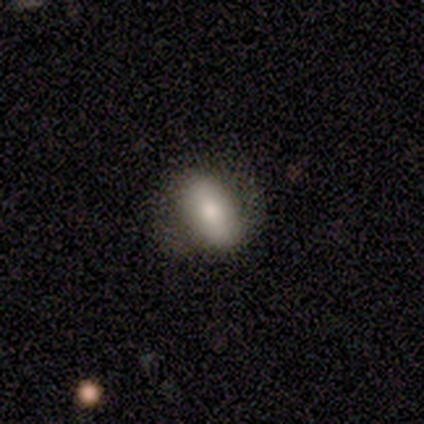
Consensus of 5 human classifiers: This is likely a featured or disk galaxy (60%). It is clearly not viewed edge-on (100%). Bar: likely strong (67%). Spiral arm pattern: likely yes (67%). Spiral arm count: clearly 2 (100%). Spiral winding: clearly medium (100%). Central bulge: likely small (67%). Merging: clearly none (80%).